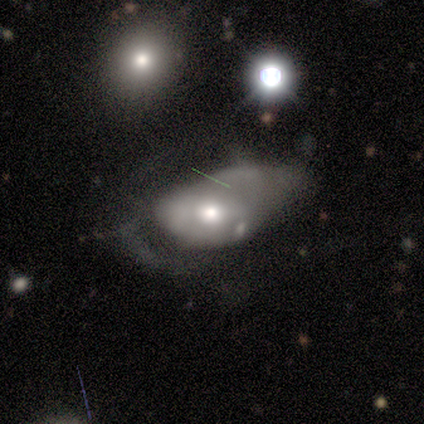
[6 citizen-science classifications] Q: Smooth or featured?
A: smooth (50%); tied with: star or artifact (50%)
Q: How rounded?
A: in between (100%)
Q: Merging?
A: major disturbance (67%); runner-up: none (33%)